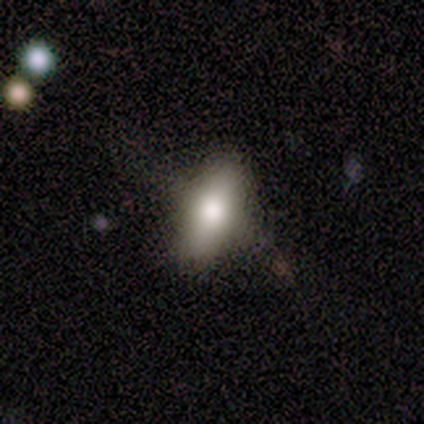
A smooth galaxy with no disk features (80%) that is in between round and cigar-shaped (75%). Merging: none (80%).